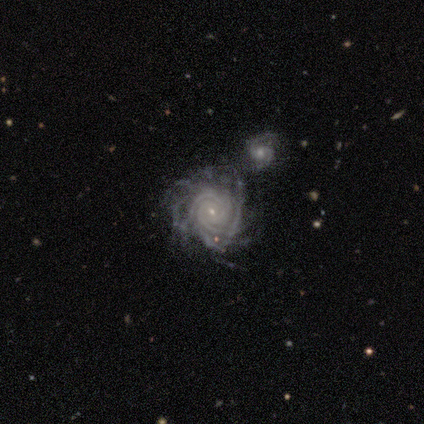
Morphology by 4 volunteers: A featured or disk galaxy (50%) viewed edge-on (50%, tied with no) with a rounded central bulge (100%). Merging: none (33%, tied with minor disturbance and merger).